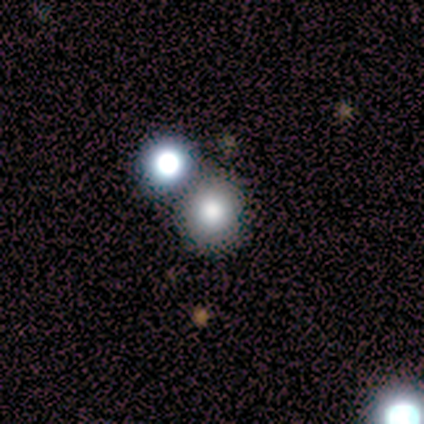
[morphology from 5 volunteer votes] A smooth galaxy with no disk features (80%) that is round (100%). Merging: none (100%).